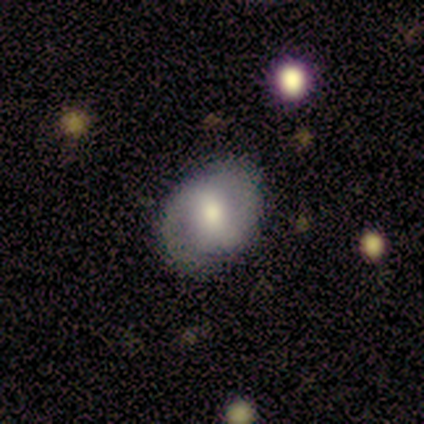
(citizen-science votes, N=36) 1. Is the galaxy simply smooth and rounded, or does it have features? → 61% featured or disk, 36% smooth, 3% star or artifact.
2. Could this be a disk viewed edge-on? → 95% no, 5% yes.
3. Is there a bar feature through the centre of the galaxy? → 62% weak, 19% strong, 19% no.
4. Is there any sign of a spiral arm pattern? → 71% yes, 29% no.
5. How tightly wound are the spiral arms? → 40% medium, 33% tight, 27% loose.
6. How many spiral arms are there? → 100% 2, 0% 1, 0% 3, 0% 4, 0% more than 4, 0% can't tell.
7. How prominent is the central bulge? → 71% moderate, 19% small, 10% large, 0% dominant, 0% none.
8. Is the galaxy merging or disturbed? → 71% none, 26% minor disturbance, 3% major disturbance, 0% merger.